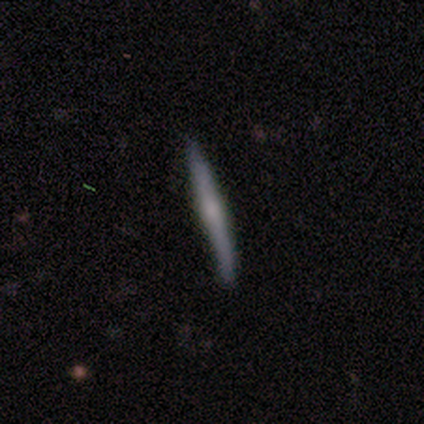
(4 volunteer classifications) Overall: featured or disk (75%). Edge-on disk: yes (100%). Edge-on bulge: rounded (67%; boxy 33%). Merging: minor disturbance (75%).